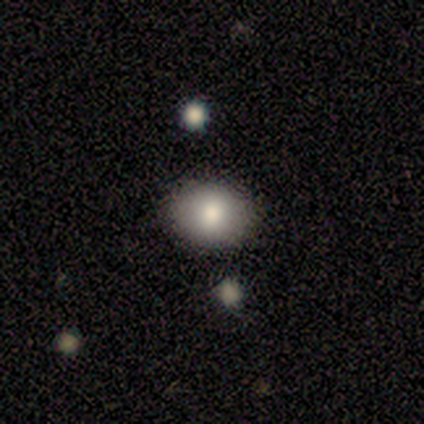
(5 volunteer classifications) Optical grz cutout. It shows a smooth galaxy with no disk features (80%) that is round (75%). Merging: none (80%).